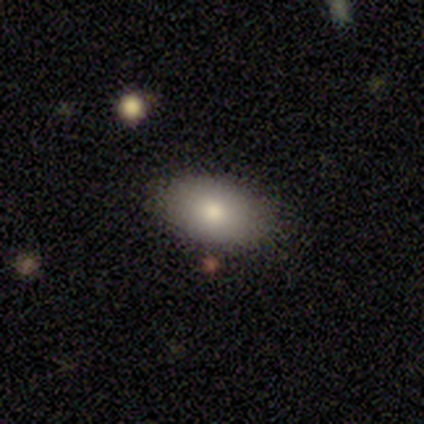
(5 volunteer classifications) Smooth or featured: smooth — 80% (star or artifact — 20%)
How rounded: in between — 100%
Merging: none — 100%